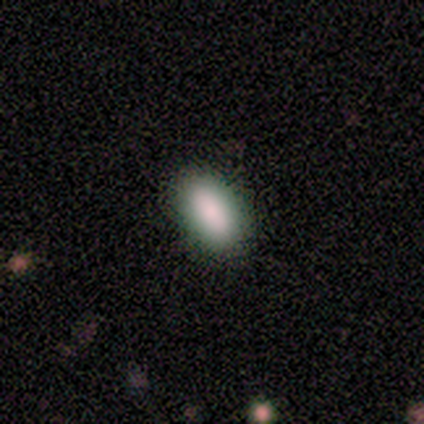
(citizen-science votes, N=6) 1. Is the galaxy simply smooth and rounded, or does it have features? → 83% smooth, 17% featured or disk, 0% star or artifact.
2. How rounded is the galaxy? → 100% in between, 0% round, 0% cigar-shaped.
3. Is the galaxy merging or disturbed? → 83% none, 17% major disturbance, 0% minor disturbance, 0% merger.